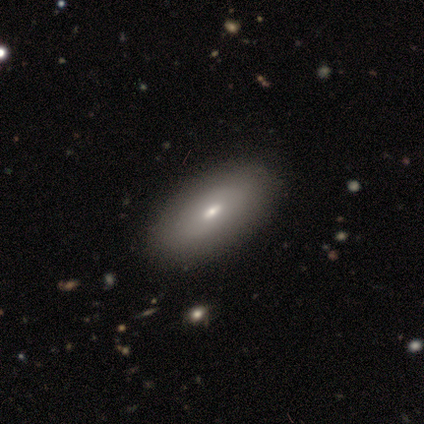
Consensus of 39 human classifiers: Volunteers were most divided on "smooth or featured": smooth: 72%, featured or disk: 28%, star or artifact: 0%. More confident: how rounded — in between (86%); merging — none (62%).